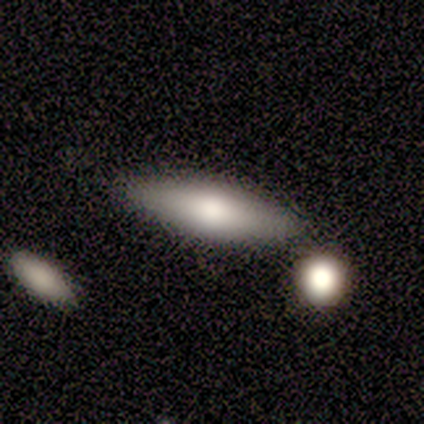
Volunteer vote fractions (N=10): Smooth or featured: smooth — 80% (featured or disk — 10%)
How rounded: cigar-shaped — 62% (in between — 38%)
Merging: none — 78% (minor disturbance — 11%)